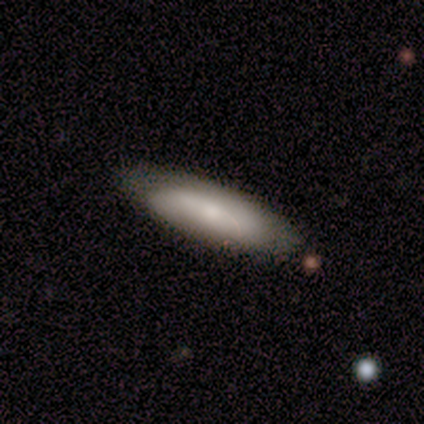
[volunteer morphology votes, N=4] Overall: smooth (75%). How rounded: in between (67%; cigar-shaped 33%). Merging: none (50%, tied with minor disturbance).